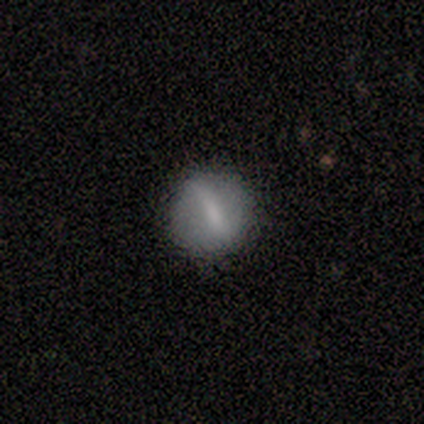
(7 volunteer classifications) Volunteers were most divided on "bar" (2-way tie): strong: 50%, weak: 50%, no: 0%; "bulge size" (4-way tie): large: 25%, moderate: 25%, small: 25%, none: 25%, dominant: 0%. More confident: edge-on disk — no (100%); spiral arms — no (100%); merging — none (100%); smooth or featured — featured or disk (57%).